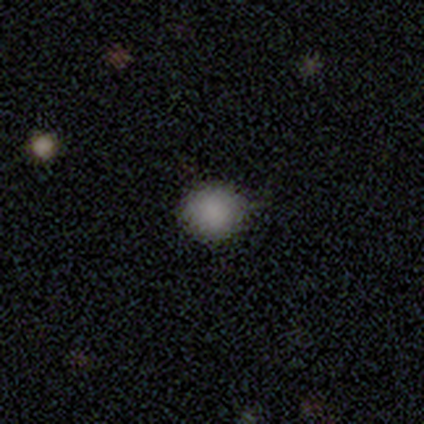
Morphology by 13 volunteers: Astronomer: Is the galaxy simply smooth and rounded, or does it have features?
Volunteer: smooth — 100%.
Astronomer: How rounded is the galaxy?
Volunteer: round — 92%.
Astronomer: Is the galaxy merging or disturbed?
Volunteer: none — 69%.